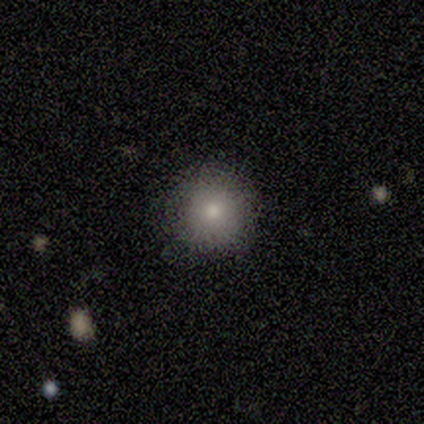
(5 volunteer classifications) Smooth or featured? smooth (80%)
How rounded? round (100%)
Merging? none (80%)